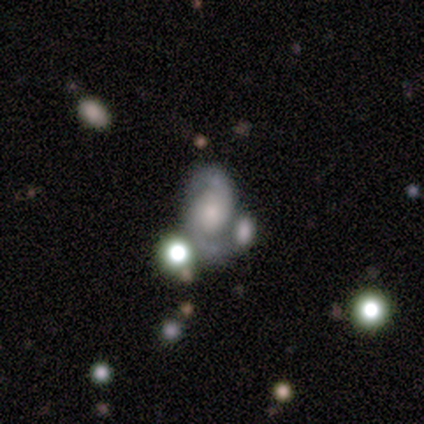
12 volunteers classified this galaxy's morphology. type=featured or disk (100%); edge-on=no (100%); bar=no (67%); spiral arms=yes (83%); winding=medium (50%); arm count=2 (90%); bulge=moderate (58%); merging=none (42%).